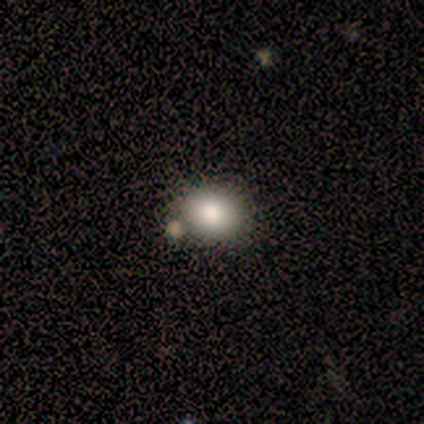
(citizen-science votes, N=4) Volunteers were most divided on "how rounded" (2-way tie): round: 50%, in between: 50%, cigar-shaped: 0%. More confident: smooth or featured — smooth (100%); merging — none (75%).